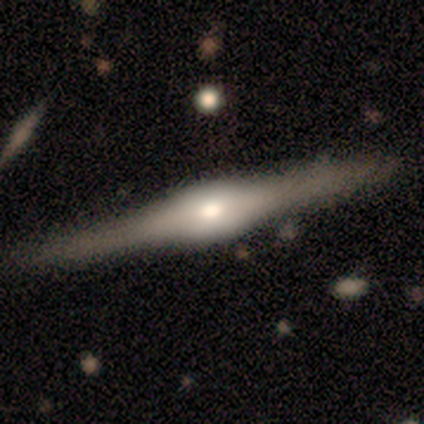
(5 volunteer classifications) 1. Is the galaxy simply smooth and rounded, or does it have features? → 60% featured or disk, 40% smooth, 0% star or artifact.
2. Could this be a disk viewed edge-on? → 67% yes, 33% no.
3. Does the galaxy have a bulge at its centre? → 100% rounded, 0% boxy, 0% none.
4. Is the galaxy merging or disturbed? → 80% none, 20% major disturbance, 0% minor disturbance, 0% merger.